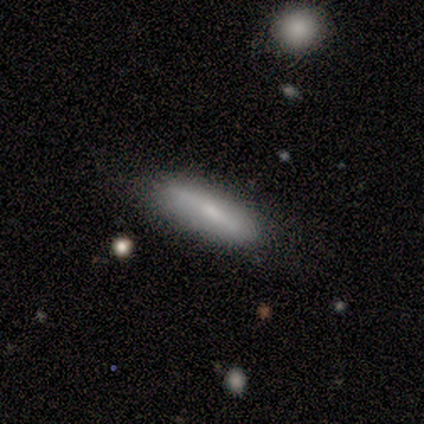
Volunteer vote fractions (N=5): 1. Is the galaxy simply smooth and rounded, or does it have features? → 60% smooth, 40% featured or disk, 0% star or artifact.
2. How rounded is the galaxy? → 67% cigar-shaped, 33% in between, 0% round.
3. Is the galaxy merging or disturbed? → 100% none, 0% minor disturbance, 0% major disturbance, 0% merger.